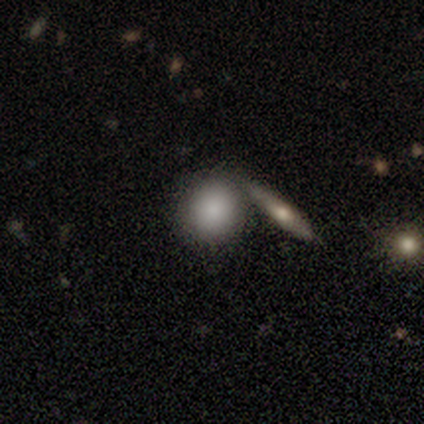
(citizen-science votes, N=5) Smooth or featured? 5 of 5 (100%) said smooth. How rounded? 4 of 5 (80%) said round. Merging? 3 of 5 (60%) said none.